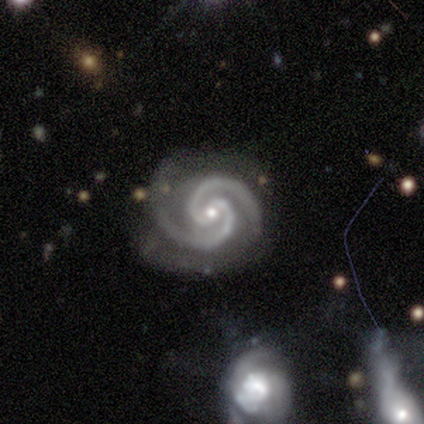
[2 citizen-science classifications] Q: Smooth or featured?
A: featured or disk (100%)
Q: Edge-on disk?
A: no (100%)
Q: Bar?
A: weak (50%); tied with: no (50%)
Q: Spiral arms?
A: yes (100%)
Q: Spiral winding?
A: tight (100%)
Q: Spiral arm count?
A: 2 (100%)
Q: Bulge size?
A: small (100%)
Q: Merging?
A: none (50%); tied with: major disturbance (50%)